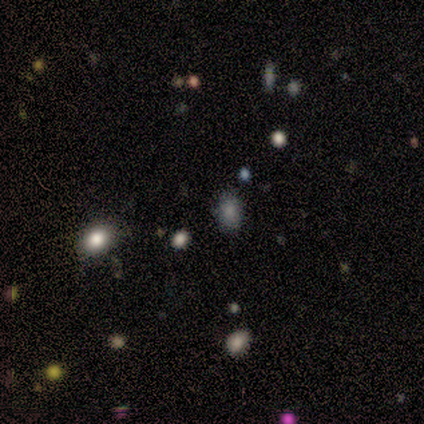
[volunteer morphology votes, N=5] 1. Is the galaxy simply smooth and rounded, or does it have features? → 60% star or artifact, 40% smooth, 0% featured or disk.